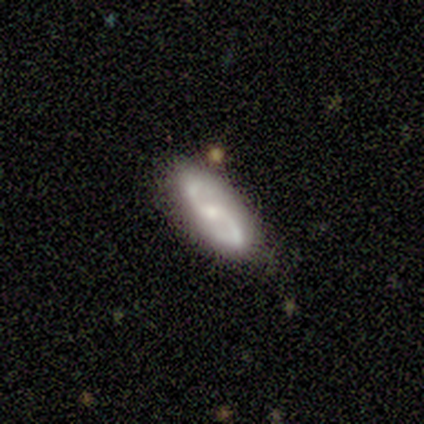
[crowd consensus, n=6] smooth-or-featured: featured or disk: 83% | smooth: 17% | star or artifact: 0%
  disk-edge-on: no: 100% | yes: 0%
    bar: weak: 40% (tied) | no: 40% (tied) | strong: 20%
    has-spiral-arms: yes: 80% | no: 20%
      spiral-winding: medium: 75% | loose: 25% | tight: 0%
      spiral-arm-count: 2: 100% | 1: 0% | 3: 0% | 4: 0% | more than 4: 0% | can't tell: 0%
    bulge-size: small: 60% | moderate: 20% | none: 20% | dominant: 0% | large: 0%
  merging: none: 67% | minor disturbance: 17% | major disturbance: 17% | merger: 0%